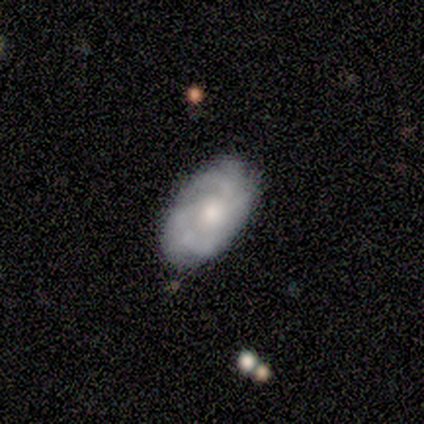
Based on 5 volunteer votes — smooth_or_featured: featured or disk (p=0.80) [alt: smooth p=0.20]
disk_edge_on: no (p=1.00)
bar: no (p=1.00)
has_spiral_arms: yes (p=1.00)
spiral_winding: tight (p=0.50) [tied with: medium p=0.50]
spiral_arm_count: 3 (p=0.50) [alt: 2 p=0.25]
bulge_size: moderate (p=0.50) [tied with: small p=0.50]
merging: none (p=0.80) [alt: merger p=0.20]